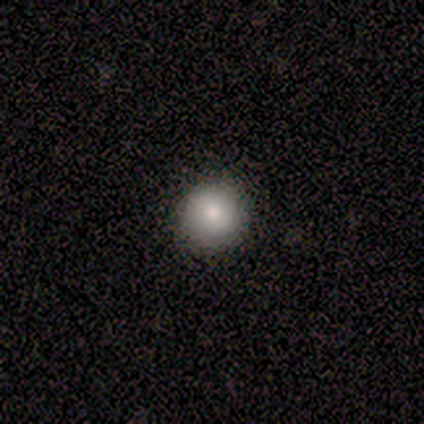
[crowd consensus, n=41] Smooth or featured: smooth — 76% (featured or disk — 22%)
How rounded: round — 94% (in between — 6%)
Merging: none — 85% (minor disturbance — 8%)